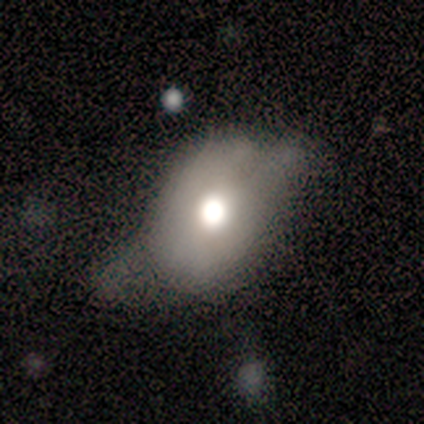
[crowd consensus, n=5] This appears to be a featured or disk galaxy (80%) with no bar (100%), no spiral arms (100%) and a moderate central bulge (67%). Merging: none (40%, tied with major disturbance).